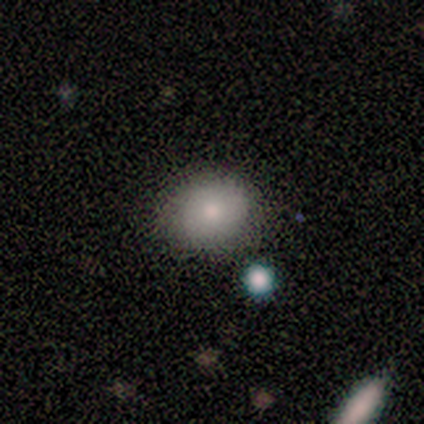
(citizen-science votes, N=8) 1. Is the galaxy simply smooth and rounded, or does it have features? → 50% smooth, 38% featured or disk, 12% star or artifact.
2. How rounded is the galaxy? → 75% round, 25% in between, 0% cigar-shaped.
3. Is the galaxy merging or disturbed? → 86% none, 14% minor disturbance, 0% major disturbance, 0% merger.